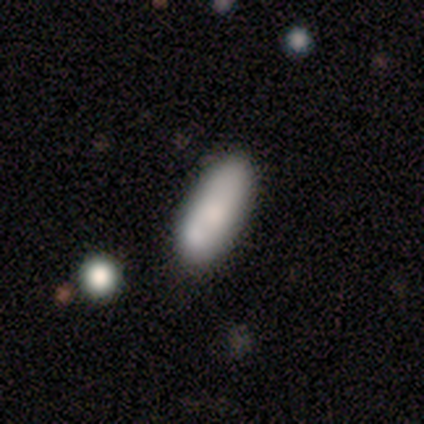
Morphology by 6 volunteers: Smooth or featured? smooth (100%)
How rounded? in between (67%)
Merging? none (83%)